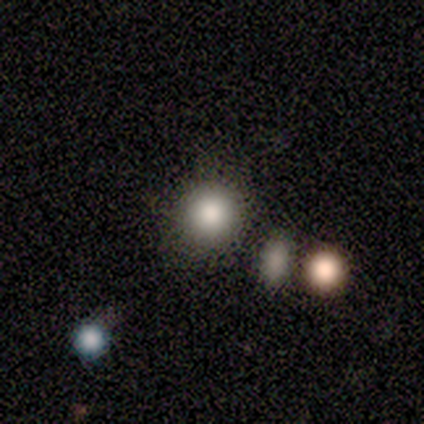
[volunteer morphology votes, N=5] Smooth or featured? smooth (100%)
How rounded? round (60%)
Merging? none (60%)